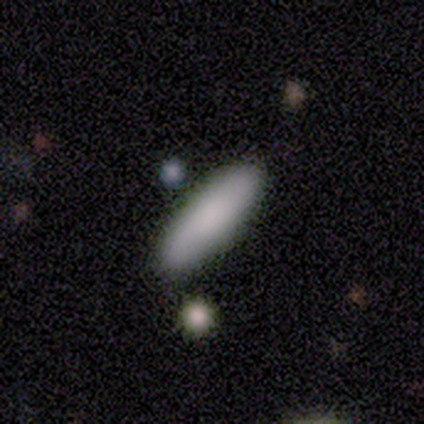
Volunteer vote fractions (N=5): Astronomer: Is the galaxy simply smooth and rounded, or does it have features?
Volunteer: smooth — 100%.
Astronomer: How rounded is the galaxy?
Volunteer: cigar-shaped — 60% (runner-up: in between, 40%).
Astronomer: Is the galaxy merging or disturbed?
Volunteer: none — 80%.